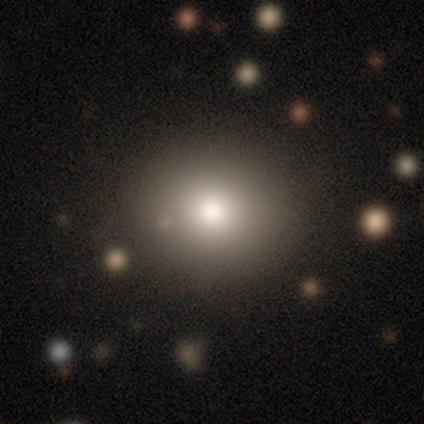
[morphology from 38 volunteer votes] Volunteers were most divided on "smooth or featured": smooth: 76%, star or artifact: 13%, featured or disk: 11%. More confident: merging — none (94%); how rounded — round (93%).